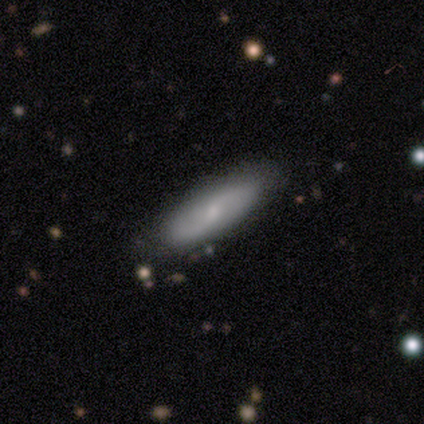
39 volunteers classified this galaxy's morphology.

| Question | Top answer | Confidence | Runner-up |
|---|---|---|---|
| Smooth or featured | smooth | 54% | featured or disk (41%) |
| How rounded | cigar-shaped | 57% | in between (43%) |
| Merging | none | 89% | minor disturbance (11%) |